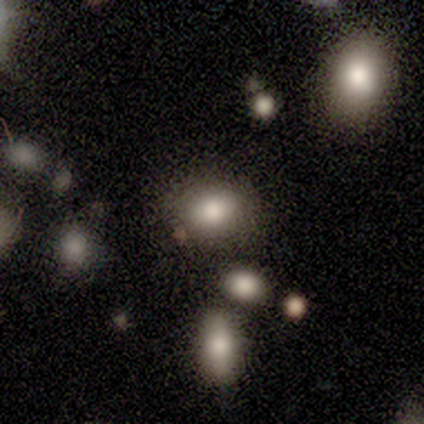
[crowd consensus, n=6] A smooth galaxy with no disk features (100%) that is in between round and cigar-shaped (67%).

Vote fractions:
- Smooth or featured? smooth: 100% / featured or disk: 0% / star or artifact: 0%
- How rounded? in between: 67% / round: 33% / cigar-shaped: 0%
- Merging? none: 83% / major disturbance: 17% / minor disturbance: 0% / merger: 0%